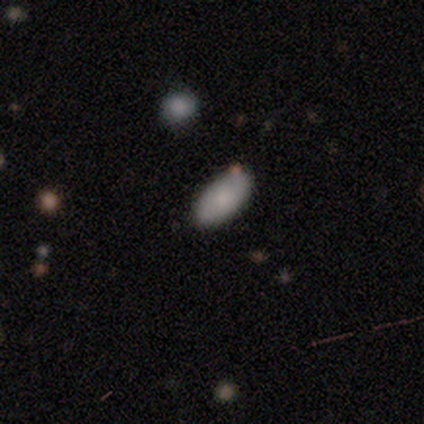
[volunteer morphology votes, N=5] Volunteers were most divided on "merging": none: 75%, merger: 25%, minor disturbance: 0%, major disturbance: 0%. More confident: how rounded — in between (100%); smooth or featured — smooth (80%).